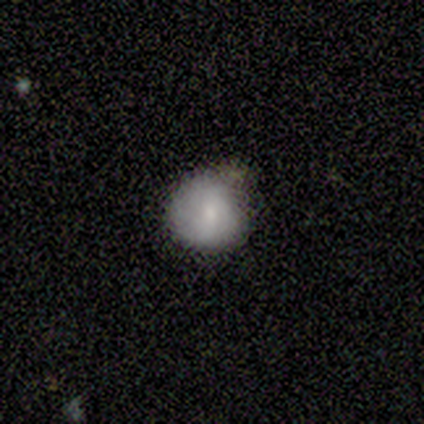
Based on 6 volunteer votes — smooth-or-featured: smooth: 100% | featured or disk: 0% | star or artifact: 0%
  how-rounded: round: 83% | in between: 17% | cigar-shaped: 0%
  merging: none: 50% | major disturbance: 33% | minor disturbance: 17% | merger: 0%